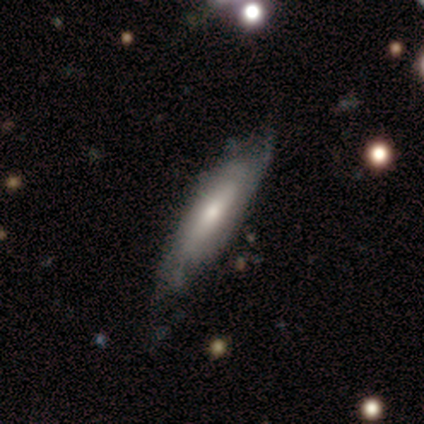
Smooth or featured? 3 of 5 (60%) said smooth. How rounded? 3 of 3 (100%) said cigar-shaped. Merging? 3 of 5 (60%) said minor disturbance.